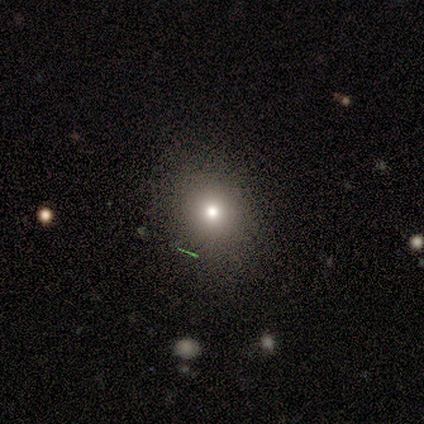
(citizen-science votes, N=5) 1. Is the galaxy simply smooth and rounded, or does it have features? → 60% smooth, 20% featured or disk, 20% star or artifact.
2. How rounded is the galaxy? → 100% round, 0% in between, 0% cigar-shaped.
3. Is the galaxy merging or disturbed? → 75% none, 25% minor disturbance, 0% major disturbance, 0% merger.